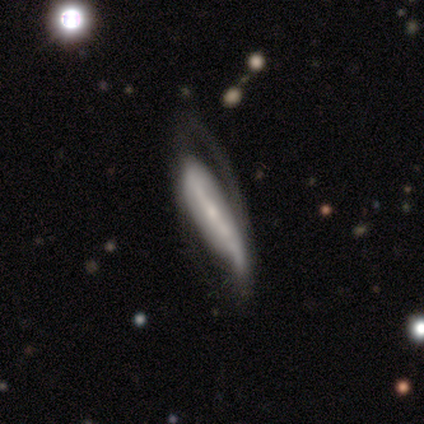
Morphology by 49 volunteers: A featured or disk galaxy (53%) with a strong bar (42%), 1 (33%, tied with 2 and can't tell) loose (73%) spiral arms (79%) and a small central bulge (95%).

Vote fractions:
- Smooth or featured? featured or disk: 53% / smooth: 41% / star or artifact: 6%
- Edge-on disk? no: 73% / yes: 27%
- Bar? strong: 42% / weak: 37% / no: 21%
- Spiral arms? yes: 79% / no: 21%
- Spiral winding? loose: 73% / tight: 13% / medium: 13%
- Spiral arm count? 1: 33% (tied) / 2: 33% (tied) / can't tell: 33% (tied) / 3: 0% / 4: 0% / more than 4: 0%
- Bulge size? small: 95% / moderate: 5% / dominant: 0% / large: 0% / none: 0%
- Merging? major disturbance: 43% / none: 30% / minor disturbance: 26% / merger: 0%